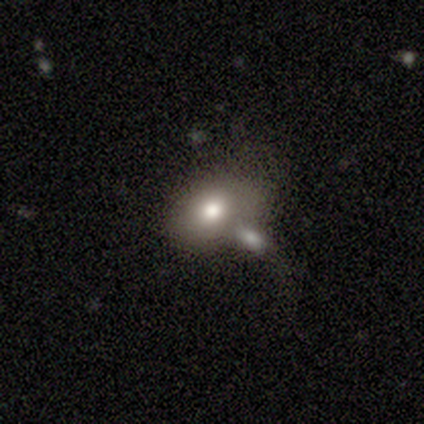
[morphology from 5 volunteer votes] Smooth or featured? smooth (80%)
How rounded? in between (75%)
Merging? none (50%)